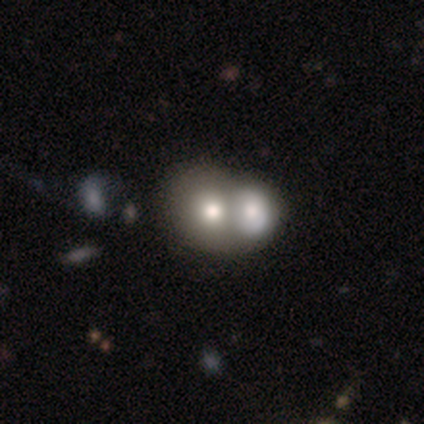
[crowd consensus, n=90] Q: Smooth or featured?
A: smooth (61%); runner-up: featured or disk (28%)
Q: How rounded?
A: round (60%); runner-up: in between (40%)
Q: Merging?
A: merger (81%); runner-up: none (10%)